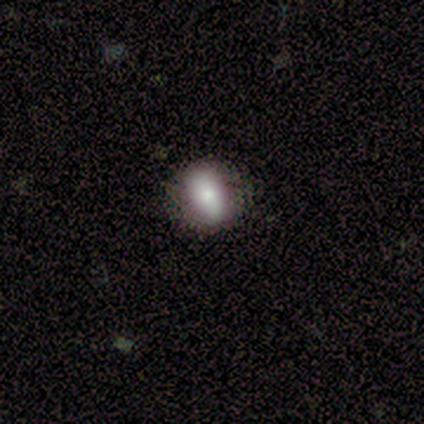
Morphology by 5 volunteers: Smooth or featured? 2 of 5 (40%, tied with star or artifact) said featured or disk. Edge-on disk? 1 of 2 (50%, tied with no) said yes. Edge-on bulge? 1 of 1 (100%) said none. Merging? 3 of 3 (100%) said none.